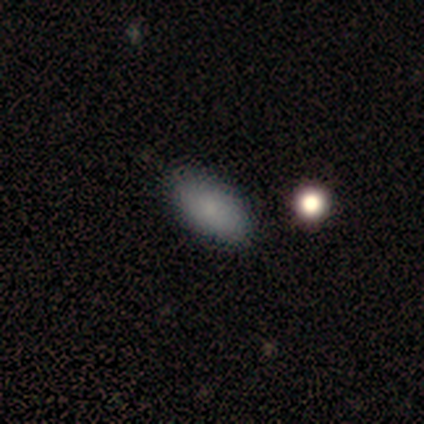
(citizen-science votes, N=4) This is clearly a smooth galaxy (100%). How rounded: clearly in between (100%). Merging: clearly none (100%).